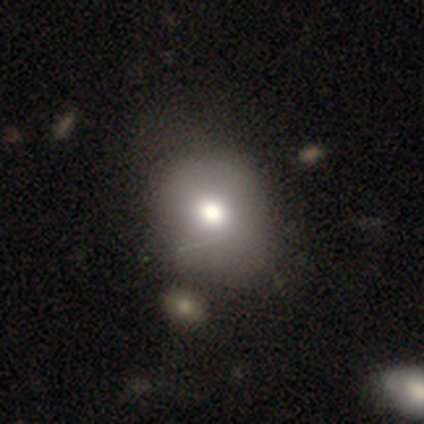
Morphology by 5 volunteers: Smooth or featured: smooth — 80% (star or artifact — 20%)
How rounded: round — 50% (tied with in between — 50%)
Merging: none — 75% (merger — 25%)